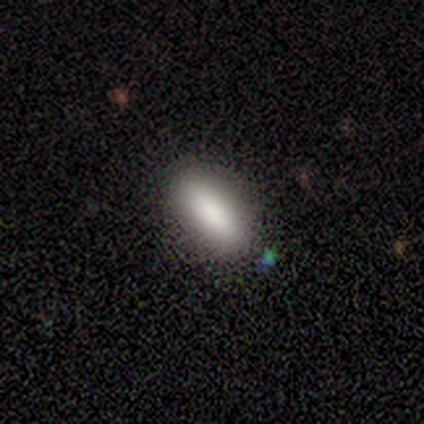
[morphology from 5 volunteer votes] smooth-or-featured: smooth: 100% | featured or disk: 0% | star or artifact: 0%
  how-rounded: in between: 80% | cigar-shaped: 20% | round: 0%
  merging: none: 100% | minor disturbance: 0% | major disturbance: 0% | merger: 0%